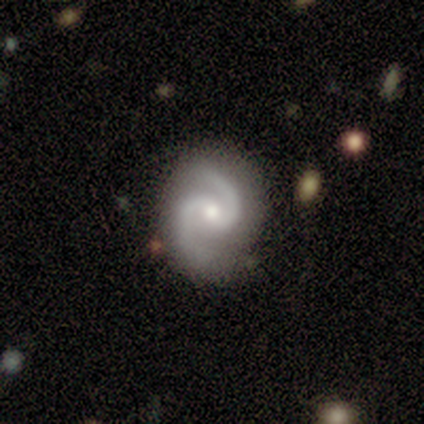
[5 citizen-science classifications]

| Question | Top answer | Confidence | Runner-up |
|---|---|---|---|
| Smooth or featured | featured or disk | 80% | smooth (20%) |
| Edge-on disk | no | 100% | — |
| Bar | no | 75% | weak (25%) |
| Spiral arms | yes | 100% | — |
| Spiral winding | medium | 100% | — |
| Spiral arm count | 2 | 100% | — |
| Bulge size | small | 75% | moderate (25%) |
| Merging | none | 100% | — |